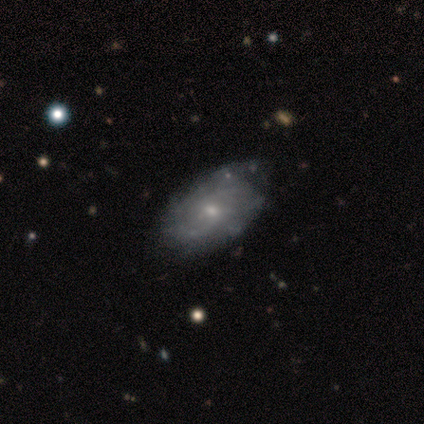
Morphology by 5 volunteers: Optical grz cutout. It shows a featured or disk galaxy (80%) with a weak bar (50%, tied with no), tight (75%) spiral arms (100%) and a small central bulge (75%). Merging: none (40%, tied with minor disturbance).